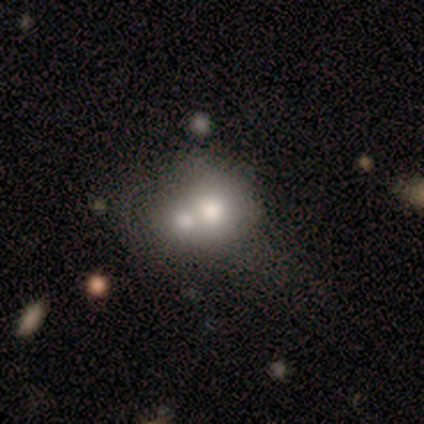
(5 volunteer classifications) This appears to be a smooth galaxy with no disk features (80%) that is round (50%, tied with in between). Merging: merger (75%).